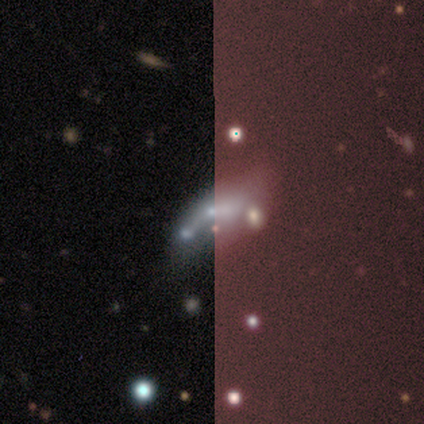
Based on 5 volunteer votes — featured or disk 80%, star or artifact 20%, smooth 0%. Down the decision tree: edge-on disk — no (75%); bar — no (100%); spiral arms — no (100%); bulge size — moderate (33%, tied with small and none); merging — major disturbance (50%).